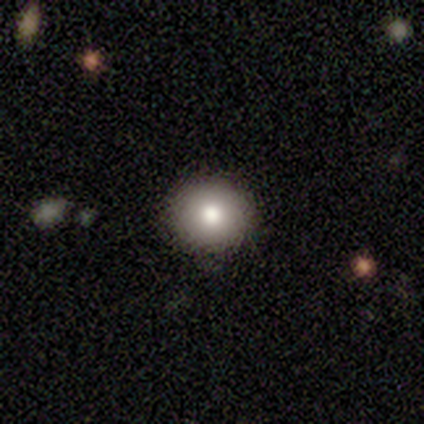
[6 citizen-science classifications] Smooth or featured? smooth (100%)
How rounded? round (100%)
Merging? none (83%)